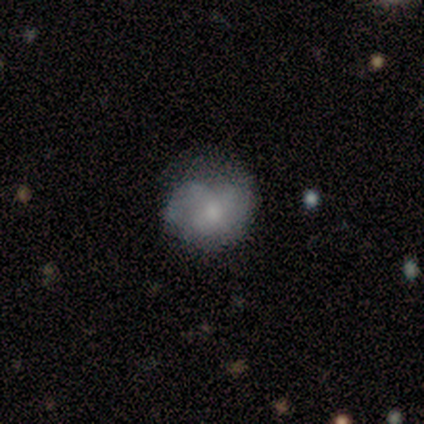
Smooth or featured? 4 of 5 (80%) said smooth. How rounded? 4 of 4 (100%) said round. Merging? 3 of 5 (60%) said none.